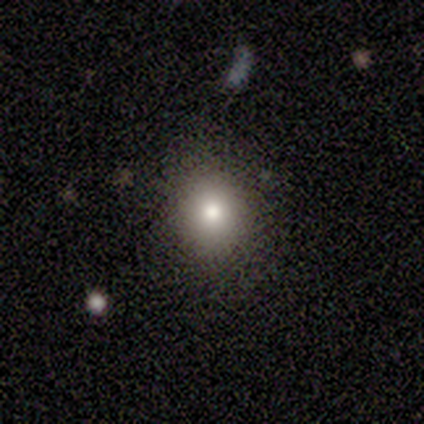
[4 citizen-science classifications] This is clearly a smooth galaxy (100%). How rounded: likely round (75%). Merging: likely none (75%).